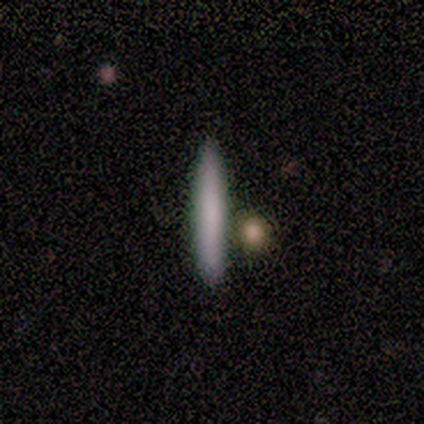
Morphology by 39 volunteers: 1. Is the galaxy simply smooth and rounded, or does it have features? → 59% smooth, 31% featured or disk, 10% star or artifact.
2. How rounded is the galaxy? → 100% cigar-shaped, 0% round, 0% in between.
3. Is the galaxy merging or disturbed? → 86% none, 9% minor disturbance, 3% major disturbance, 3% merger.